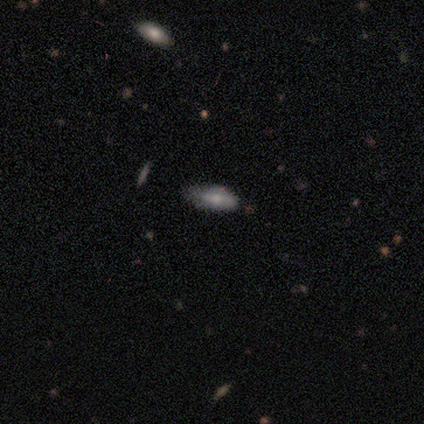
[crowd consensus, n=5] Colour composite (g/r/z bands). It shows a featured or disk galaxy (60%) with a strong bar (33%, tied with weak and no), no spiral arms (67%) and a moderate central bulge (100%). Merging: minor disturbance (80%).